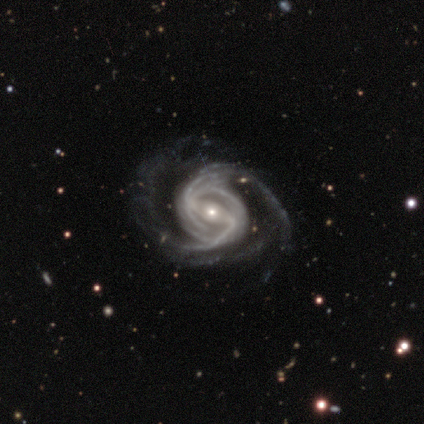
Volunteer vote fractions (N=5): smooth-or-featured: featured or disk: 100% | smooth: 0% | star or artifact: 0%
  disk-edge-on: no: 100% | yes: 0%
    bar: strong: 60% | weak: 40% | no: 0%
    has-spiral-arms: yes: 100% | no: 0%
      spiral-winding: tight: 40% (tied) | medium: 40% (tied) | loose: 20%
      spiral-arm-count: 2: 100% | 1: 0% | 3: 0% | 4: 0% | more than 4: 0% | can't tell: 0%
    bulge-size: small: 80% | moderate: 20% | dominant: 0% | large: 0% | none: 0%
  merging: none: 80% | major disturbance: 20% | minor disturbance: 0% | merger: 0%